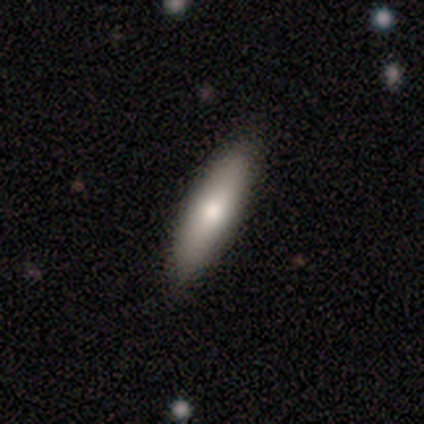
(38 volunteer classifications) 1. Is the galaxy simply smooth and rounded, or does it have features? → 74% smooth, 13% featured or disk, 13% star or artifact.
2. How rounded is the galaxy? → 64% cigar-shaped, 36% in between, 0% round.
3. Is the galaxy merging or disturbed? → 85% none, 9% minor disturbance, 6% major disturbance, 0% merger.